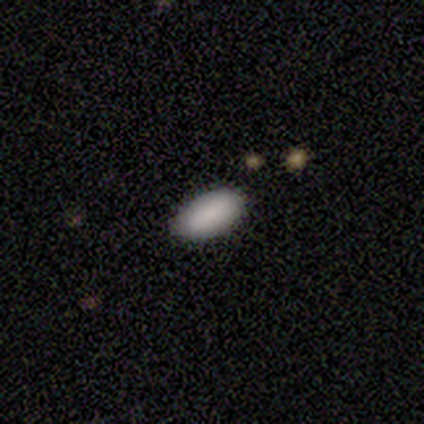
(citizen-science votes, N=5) smooth 80%, star or artifact 20%, featured or disk 0%. Down the decision tree: how rounded — in between (100%); merging — none (100%).